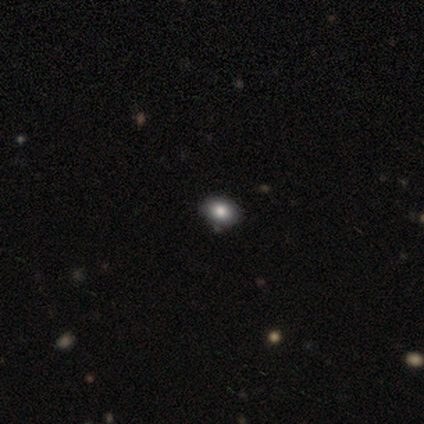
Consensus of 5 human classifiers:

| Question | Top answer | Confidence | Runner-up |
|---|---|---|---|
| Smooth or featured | smooth | 60% | featured or disk (20%) |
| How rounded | in between | 67% | round (33%) |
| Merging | none | 100% | — |